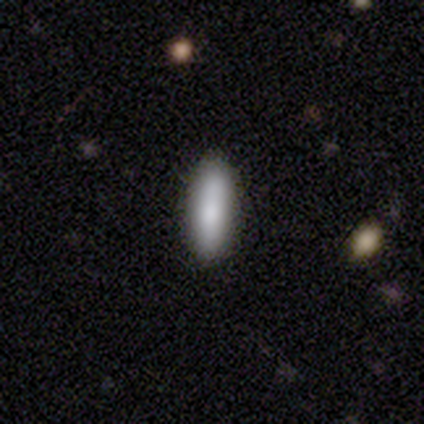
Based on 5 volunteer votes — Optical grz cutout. It shows a smooth galaxy with no disk features (100%) that is in between round and cigar-shaped (60%). Merging: none (100%).